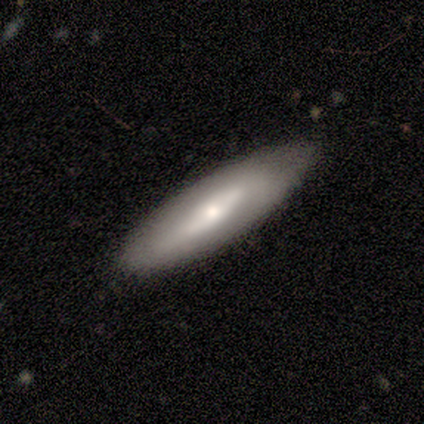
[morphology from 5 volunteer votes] This is clearly a smooth galaxy (100%). How rounded: likely cigar-shaped (60%). Merging: clearly none (80%).